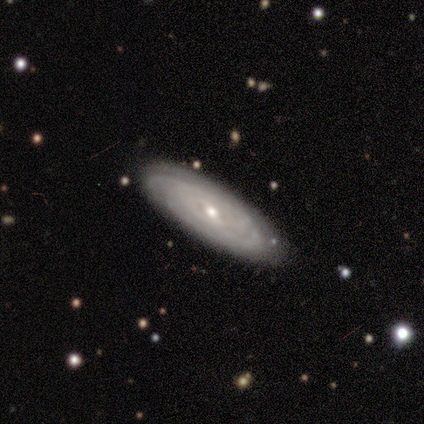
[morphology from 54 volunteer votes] smooth-or-featured: featured or disk: 87% | smooth: 9% | star or artifact: 4%
  disk-edge-on: no: 89% | yes: 11%
    bar: weak: 55% | no: 36% | strong: 10%
    has-spiral-arms: yes: 79% | no: 21%
      spiral-winding: tight: 91% | medium: 6% | loose: 3%
      spiral-arm-count: can't tell: 58% | 2: 21% | 4: 12% | more than 4: 6% | 3: 3% | 1: 0%
    bulge-size: small: 57% | moderate: 40% | large: 2% | dominant: 0% | none: 0%
  merging: none: 79% | minor disturbance: 17% | merger: 4% | major disturbance: 0%